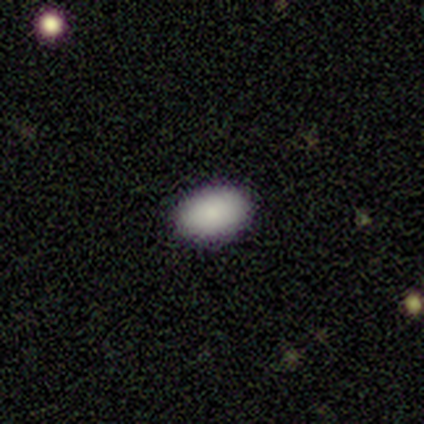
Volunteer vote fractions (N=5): Morphology: type=smooth (80%); roundness=in between (100%); merging=none (100%).